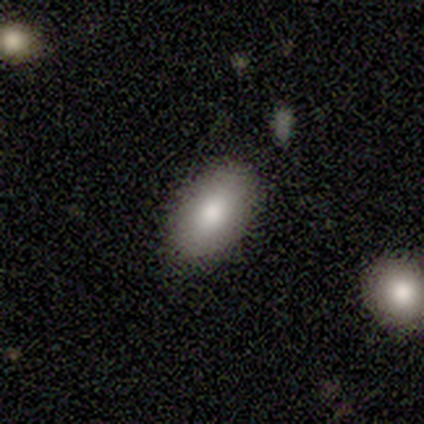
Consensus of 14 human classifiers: Volunteers were most divided on "smooth or featured": smooth: 57%, featured or disk: 36%, star or artifact: 7%. More confident: how rounded — in between (100%); merging — none (100%).